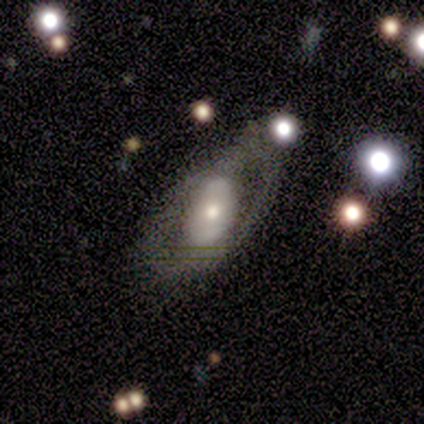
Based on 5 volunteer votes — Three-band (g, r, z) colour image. It shows a featured or disk galaxy (60%) with a strong bar (67%), no spiral arms (100%) and a small central bulge (67%). Merging: none (80%).